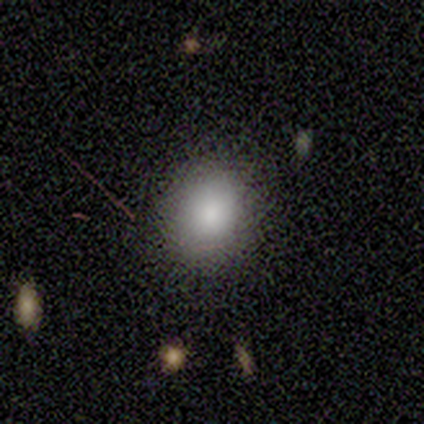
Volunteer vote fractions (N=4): Smooth or featured? 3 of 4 (75%) said smooth. How rounded? 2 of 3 (67%) said round. Merging? 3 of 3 (100%) said none.